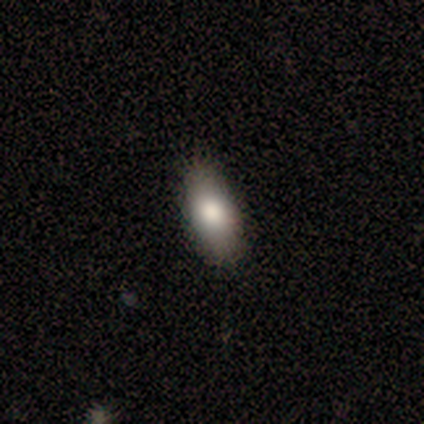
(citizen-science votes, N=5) Smooth or featured? 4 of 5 (80%) said smooth. How rounded? 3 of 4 (75%) said in between. Merging? 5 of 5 (100%) said none.